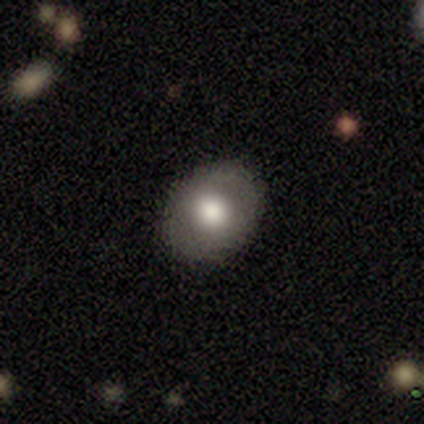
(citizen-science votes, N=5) Q: Smooth or featured?
A: smooth (80%); runner-up: featured or disk (20%)
Q: How rounded?
A: round (50%); tied with: in between (50%)
Q: Merging?
A: none (100%)